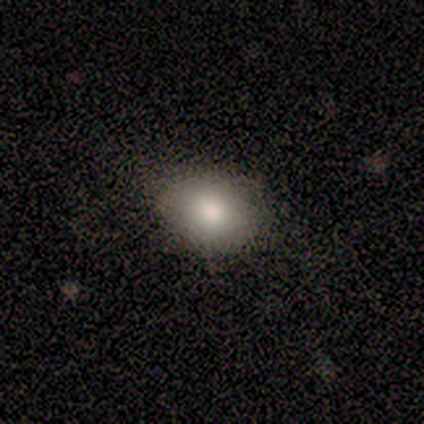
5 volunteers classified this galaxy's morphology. Q: Smooth or featured?
A: smooth (100%)
Q: How rounded?
A: in between (60%); runner-up: round (40%)
Q: Merging?
A: none (60%); runner-up: minor disturbance (40%)